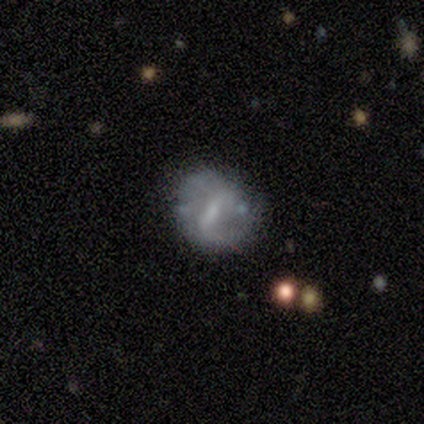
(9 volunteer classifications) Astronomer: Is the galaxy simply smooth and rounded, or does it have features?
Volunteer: featured or disk — 78%.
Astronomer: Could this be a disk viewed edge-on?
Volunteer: no — 100%.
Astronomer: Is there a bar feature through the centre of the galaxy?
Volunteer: strong — 71%.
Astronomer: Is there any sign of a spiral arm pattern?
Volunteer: no — 57% (runner-up: yes, 43%).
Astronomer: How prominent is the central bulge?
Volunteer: moderate — 29%, tied with small at 29%.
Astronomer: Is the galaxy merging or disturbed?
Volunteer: none — 56% (runner-up: major disturbance, 33%).